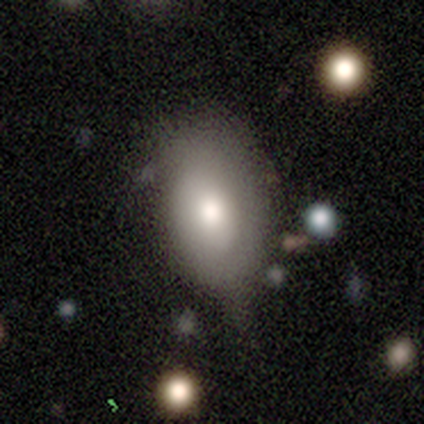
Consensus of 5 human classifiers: Volunteers were most divided on "smooth or featured": smooth: 60%, featured or disk: 40%, star or artifact: 0%. More confident: how rounded — in between (67%); merging — none (60%).